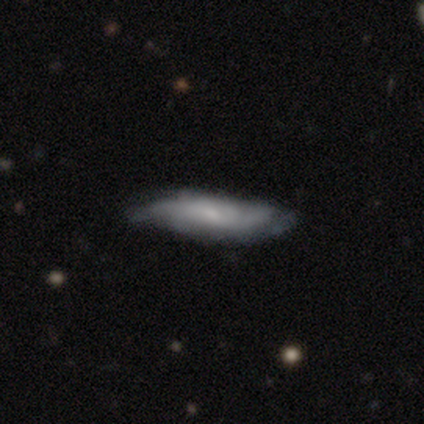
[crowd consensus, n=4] A featured or disk galaxy (50%) with no bar (100%), tight (100%) spiral arms (50%, tied with no) and a moderate central bulge (50%, tied with small). Merging: none (67%).